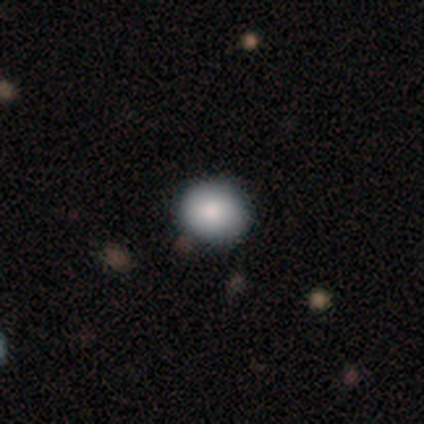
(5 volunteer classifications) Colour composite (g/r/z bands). It shows a smooth galaxy with no disk features (100%) that is round (60%). Merging: none (80%).